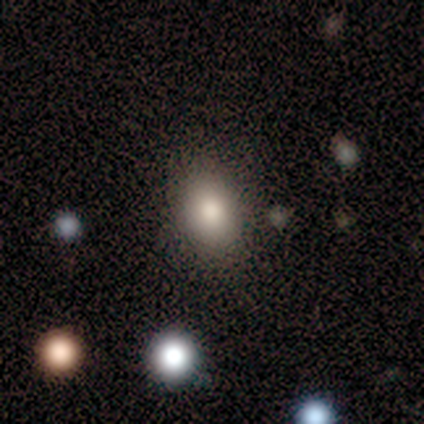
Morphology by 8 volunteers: Overall: smooth (100%). How rounded: in between (75%). Merging: none (100%).